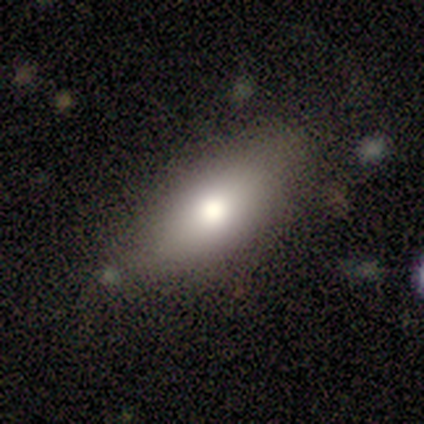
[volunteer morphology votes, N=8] A smooth galaxy with no disk features (62%) that is in between round and cigar-shaped (80%). Merging: none (100%).